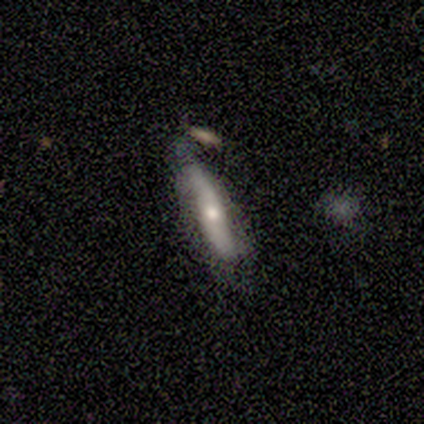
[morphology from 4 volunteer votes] Volunteers were most divided on "smooth or featured" (2-way tie): smooth: 50%, featured or disk: 50%, star or artifact: 0%. More confident: how rounded — cigar-shaped (100%); merging — minor disturbance (50%).